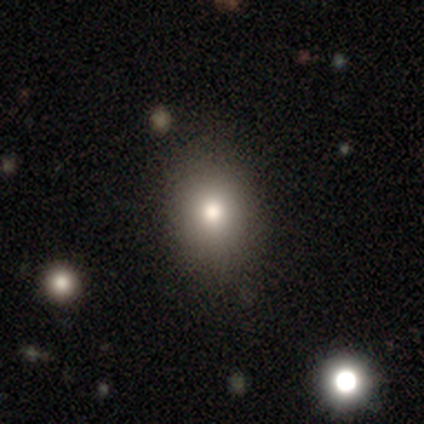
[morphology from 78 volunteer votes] A smooth galaxy with no disk features (81%) that is in between round and cigar-shaped (60%). Merging: none (41%).